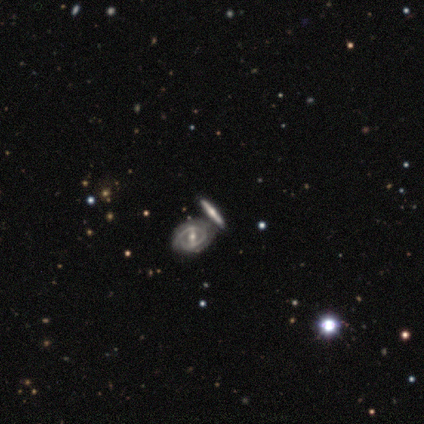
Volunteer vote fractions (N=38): Overall: featured or disk (79%). Edge-on disk: no (67%; yes 33%). Bar: strong (55%; weak 25%). Spiral arms: yes (60%; no 40%). Spiral arm count: 2 (75%). Spiral winding: tight (50%, tied with medium). Bulge size: moderate (85%). Merging: none (54%; merger 37%).